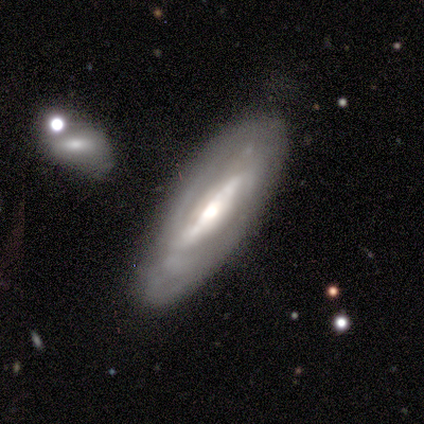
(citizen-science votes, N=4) A featured or disk galaxy (75%) with a strong bar (100%), 2 (100%) medium (100%) spiral arms (50%, tied with no) and a moderate central bulge (100%). Merging: none (75%).